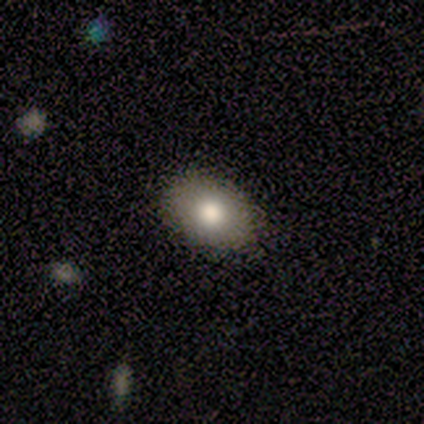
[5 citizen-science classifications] Overall: smooth (80%). How rounded: in between (75%). Merging: none (100%).